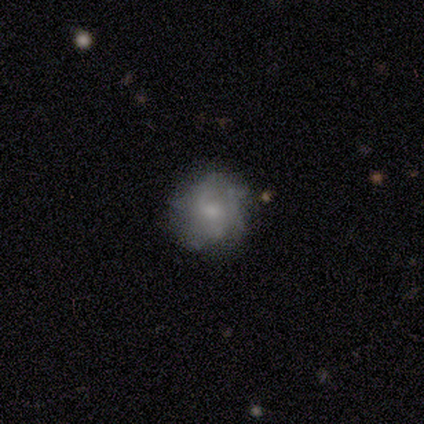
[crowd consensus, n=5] A smooth galaxy with no disk features (40%, tied with featured or disk) that is round (100%).

Vote fractions:
- Smooth or featured? smooth: 40% (tied) / featured or disk: 40% (tied) / star or artifact: 20%
- How rounded? round: 100% / in between: 0% / cigar-shaped: 0%
- Merging? none: 75% / merger: 25% / minor disturbance: 0% / major disturbance: 0%